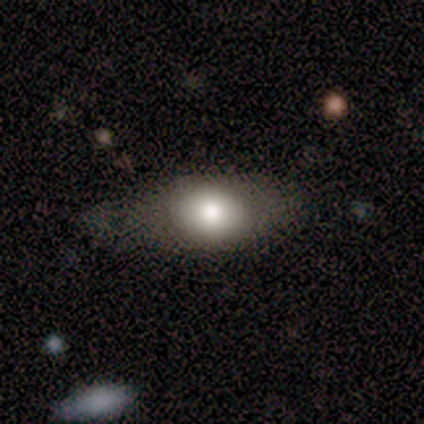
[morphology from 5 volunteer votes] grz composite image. It shows a smooth galaxy with no disk features (80%) that is in between round and cigar-shaped (75%). Merging: none (80%).